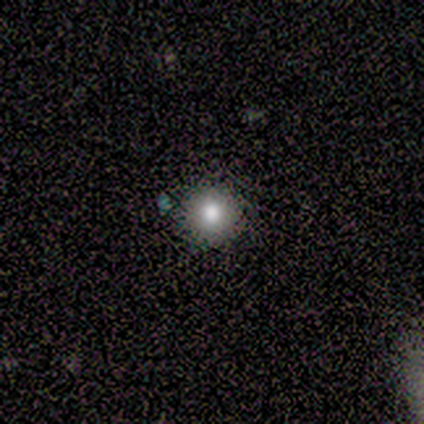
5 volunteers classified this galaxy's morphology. Volunteers were most divided on "smooth or featured": smooth: 80%, featured or disk: 20%, star or artifact: 0%. More confident: how rounded — round (100%); merging — none (100%).